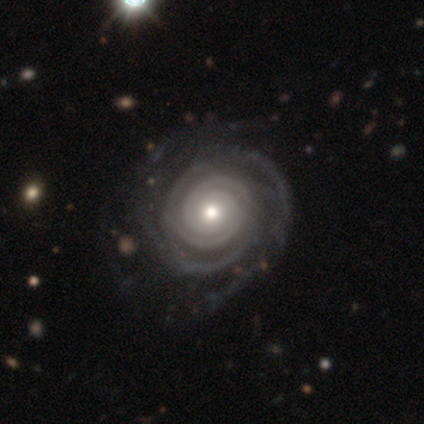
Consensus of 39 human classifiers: smooth_or_featured: featured or disk (p=1.00)
disk_edge_on: no (p=0.97) [alt: yes p=0.03]
bar: no (p=0.79) [alt: strong p=0.16]
has_spiral_arms: yes (p=1.00)
spiral_winding: tight (p=0.84) [alt: medium p=0.16]
spiral_arm_count: 2 (p=0.47) [alt: 4 p=0.16]
bulge_size: moderate (p=0.58) [alt: small p=0.24]
merging: none (p=0.56) [alt: minor disturbance p=0.08]